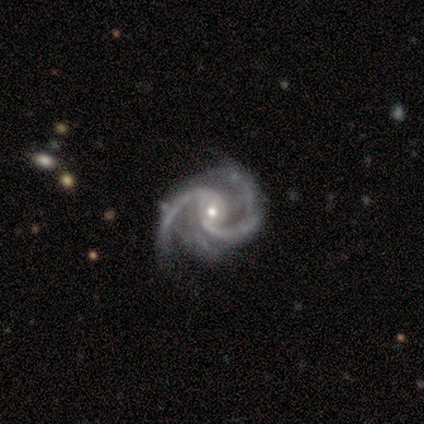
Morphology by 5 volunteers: Overall: featured or disk (100%). Edge-on disk: no (100%). Bar: no (60%; weak 40%). Spiral arms: yes (100%). Spiral arm count: 2 (100%). Spiral winding: medium (80%). Bulge size: moderate (60%; small 40%). Merging: none (100%).